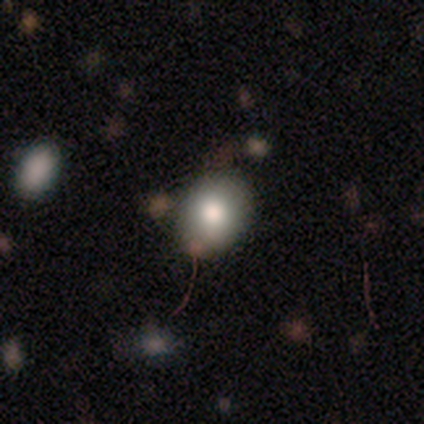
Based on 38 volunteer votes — Overall: smooth (84%). How rounded: in between (66%; round 34%). Merging: none (75%).